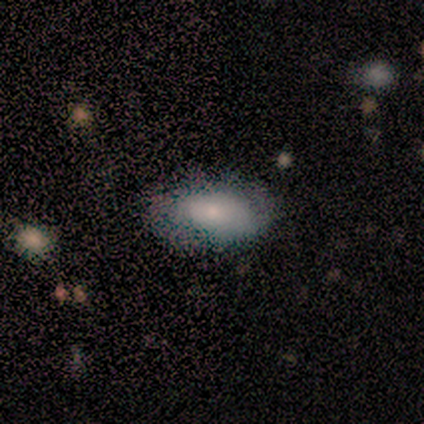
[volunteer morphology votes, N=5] Volunteers were most divided on "smooth or featured": smooth: 80%, featured or disk: 20%, star or artifact: 0%. More confident: how rounded — in between (100%); merging — none (100%).